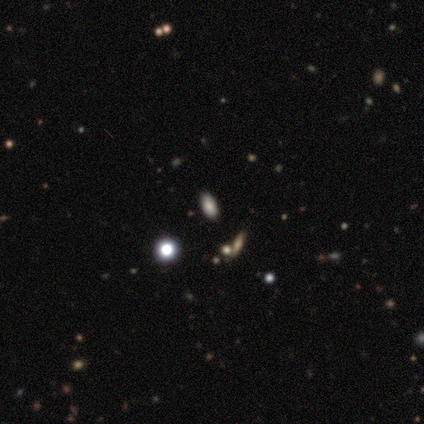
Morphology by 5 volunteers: A smooth galaxy with no disk features (80%) that is in between round and cigar-shaped (75%). Merging: none (75%).